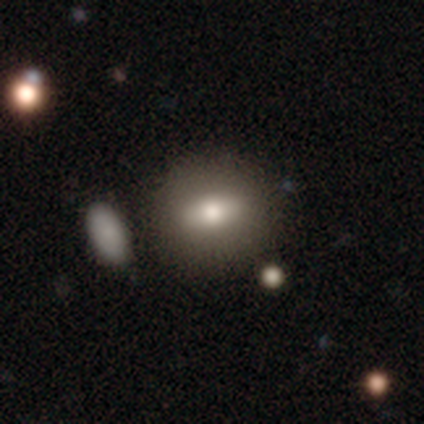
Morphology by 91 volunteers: Smooth or featured? 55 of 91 (60%) said smooth. How rounded? 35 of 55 (64%) said in between. Merging? 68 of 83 (82%) said none.